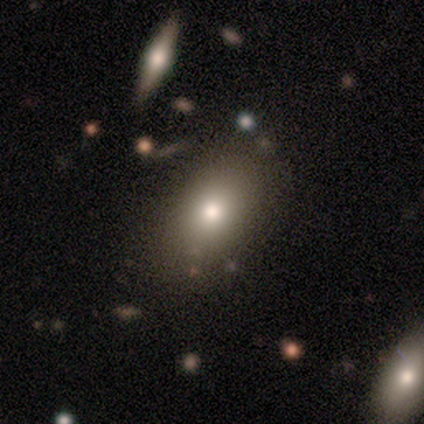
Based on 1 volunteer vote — This appears to be a smooth galaxy with no disk features (100%) that is in between round and cigar-shaped (100%). Merging: none (100%).